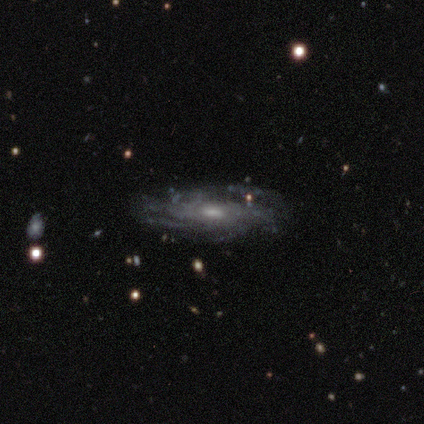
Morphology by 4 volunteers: A featured or disk galaxy (100%) with no bar (50%), 4 (50%, tied with can't tell) tight (100%) spiral arms (100%) and a moderate central bulge (75%). Merging: none (100%).